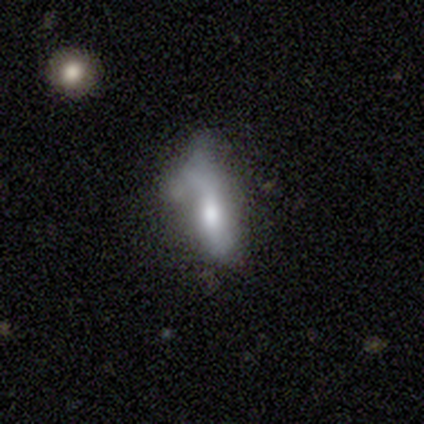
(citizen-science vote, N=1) Consensus on every question: smooth or featured — featured or disk (100%); edge-on disk — no (100%); bar — no (100%); spiral arms — no (100%); bulge size — moderate (100%); merging — major disturbance (100%).